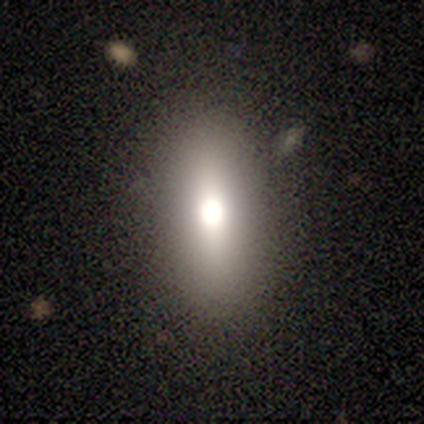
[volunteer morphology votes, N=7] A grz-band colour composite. It shows a smooth galaxy with no disk features (86%) that is in between round and cigar-shaped (100%). Merging: none (100%).